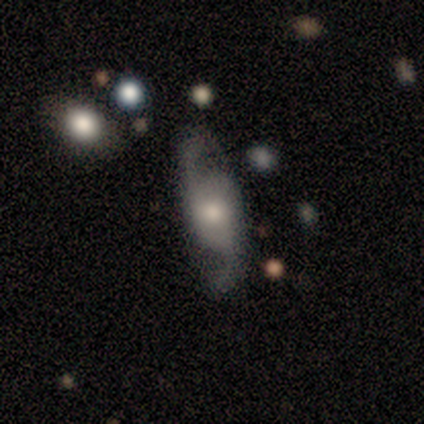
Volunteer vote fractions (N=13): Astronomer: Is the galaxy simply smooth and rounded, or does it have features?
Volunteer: featured or disk — 77%.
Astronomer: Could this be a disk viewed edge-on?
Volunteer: no — 90%.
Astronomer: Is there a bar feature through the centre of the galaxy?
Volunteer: no — 78%.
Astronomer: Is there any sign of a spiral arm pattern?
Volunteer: yes — 100%.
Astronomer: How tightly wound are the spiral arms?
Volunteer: loose — 67%.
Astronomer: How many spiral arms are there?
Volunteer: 2 — 100%.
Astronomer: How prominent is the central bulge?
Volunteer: moderate — 56% (runner-up: small, 33%).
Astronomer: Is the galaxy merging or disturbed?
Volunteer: none — 69%.